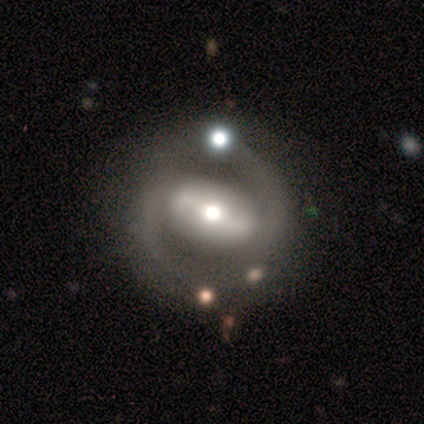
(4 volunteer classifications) Volunteers were most divided on "bar": weak: 50%, strong: 25%, no: 25%. More confident: smooth or featured — featured or disk (100%); edge-on disk — no (100%); spiral arms — yes (100%); spiral arm count — 2 (100%); spiral winding — medium (75%); bulge size — moderate (75%); merging — none (50%).